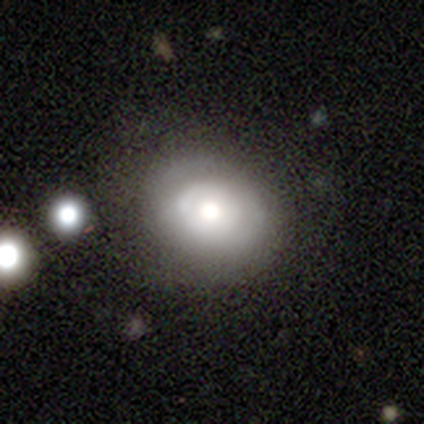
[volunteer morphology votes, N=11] A smooth galaxy with no disk features (55%) that is in between round and cigar-shaped (67%).

Vote fractions:
- Smooth or featured? smooth: 55% / featured or disk: 36% / star or artifact: 9%
- How rounded? in between: 67% / round: 33% / cigar-shaped: 0%
- Merging? none: 60% / minor disturbance: 20% / major disturbance: 20% / merger: 0%